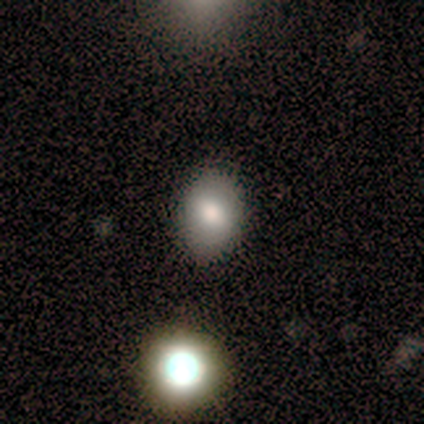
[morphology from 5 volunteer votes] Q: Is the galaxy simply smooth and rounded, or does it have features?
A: smooth — 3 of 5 (60%).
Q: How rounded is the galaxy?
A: in between — 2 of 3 (67%).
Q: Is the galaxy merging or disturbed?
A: none — 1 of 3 (33%, tied with minor disturbance and major disturbance).